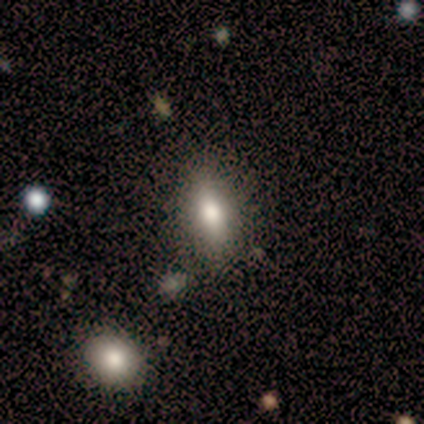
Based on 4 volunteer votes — Smooth or featured: smooth — 50% (tied with featured or disk — 50%)
How rounded: round — 50% (tied with in between — 50%)
Merging: none — 50% (tied with minor disturbance — 50%)